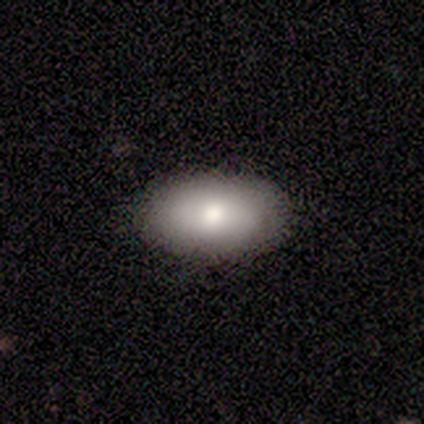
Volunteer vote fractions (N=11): smooth_or_featured: smooth (p=0.82) [alt: featured or disk p=0.18]
how_rounded: in between (p=0.89) [alt: round p=0.11]
merging: none (p=0.91) [alt: major disturbance p=0.09]